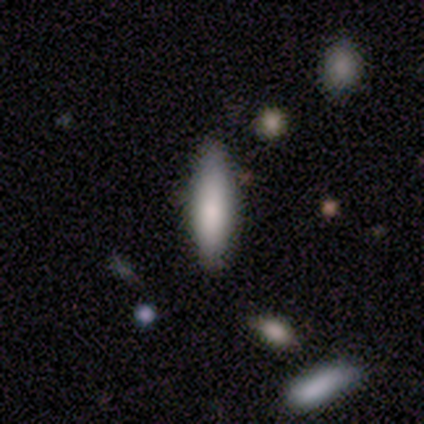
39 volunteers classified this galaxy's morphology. This is likely a smooth galaxy (69%). How rounded: possibly cigar-shaped (56%). Merging: likely none (71%).